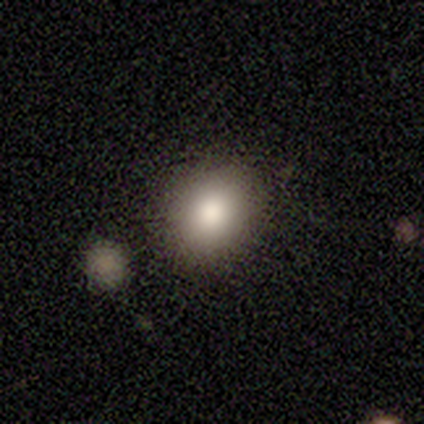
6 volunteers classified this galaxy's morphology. Overall: smooth (50%, tied with star or artifact). How rounded: round (67%; in between 33%). Merging: none (100%).